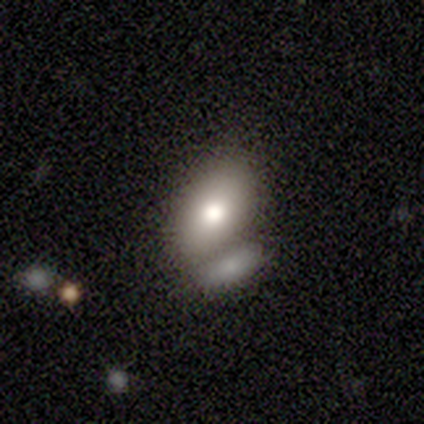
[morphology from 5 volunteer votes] smooth_or_featured: smooth (p=1.00)
how_rounded: in between (p=0.80) [alt: round p=0.20]
merging: none (p=0.60) [alt: merger p=0.40]